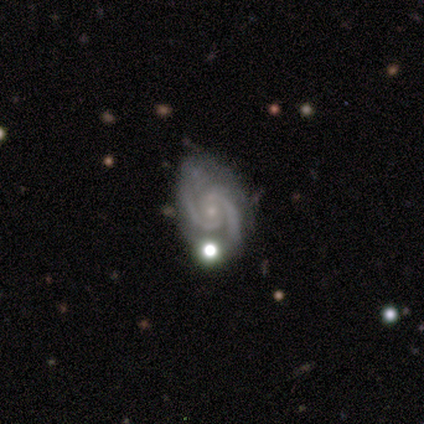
A featured or disk galaxy (95%) with no bar (54%), 2 (83%) medium (57%) spiral arms (100%) and a small central bulge (80%). Merging: none (62%).